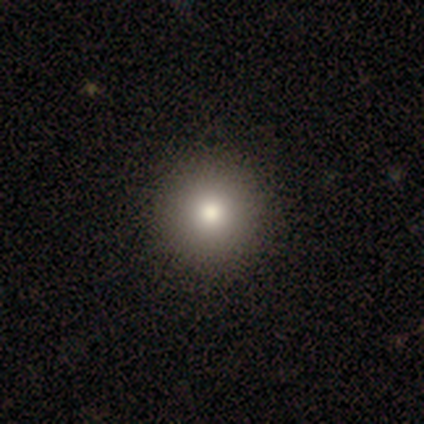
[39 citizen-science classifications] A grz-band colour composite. It shows a smooth galaxy with no disk features (79%) that is round (90%). Merging: none (64%).